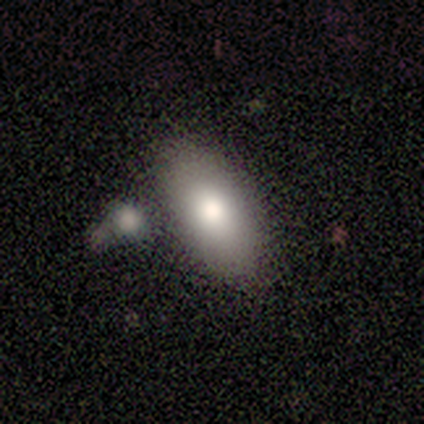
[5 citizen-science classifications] Smooth or featured? smooth (60%)
How rounded? in between (100%)
Merging? none (60%)